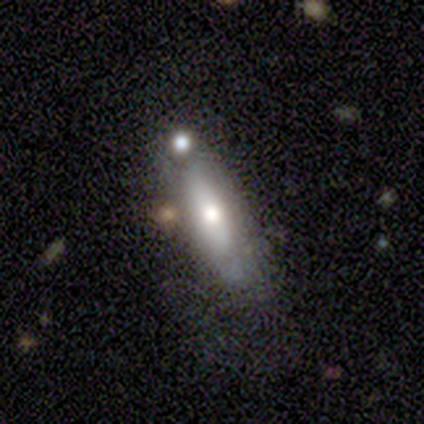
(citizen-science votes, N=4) smooth-or-featured: smooth: 50% (tied) | featured or disk: 50% (tied) | star or artifact: 0%
  how-rounded: in between: 100% | round: 0% | cigar-shaped: 0%
  merging: none: 50% (tied) | major disturbance: 50% (tied) | minor disturbance: 0% | merger: 0%